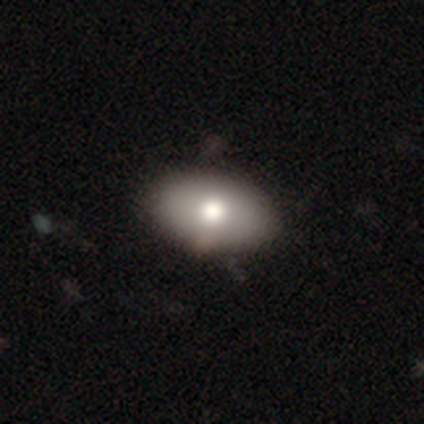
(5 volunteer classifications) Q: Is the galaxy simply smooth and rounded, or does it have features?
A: star or artifact — 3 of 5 (60%).